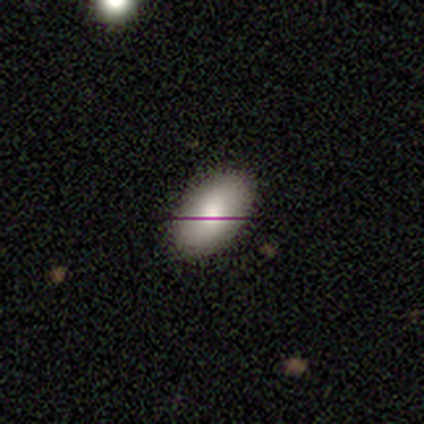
Smooth or featured? 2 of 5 (40%, tied with featured or disk) said smooth. How rounded? 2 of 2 (100%) said in between. Merging? 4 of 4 (100%) said none.